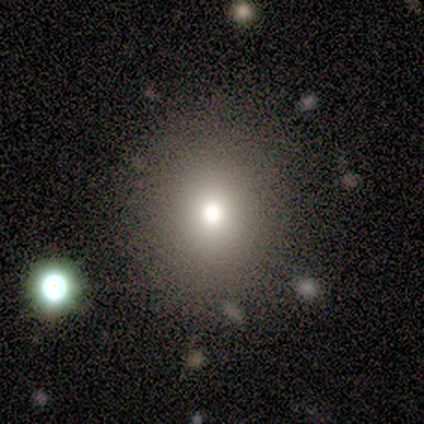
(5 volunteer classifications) Q: Smooth or featured?
A: smooth (80%); runner-up: star or artifact (20%)
Q: How rounded?
A: round (100%)
Q: Merging?
A: none (100%)